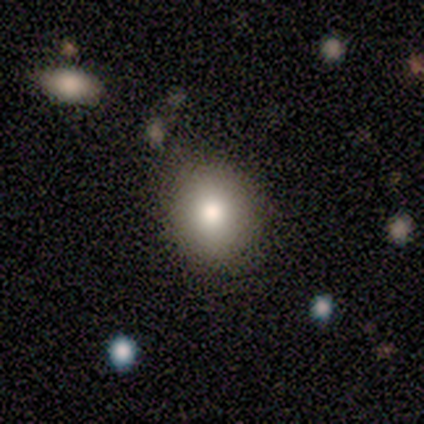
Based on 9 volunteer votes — This is clearly a smooth galaxy (89%). How rounded: likely round (75%). Merging: clearly none (100%).